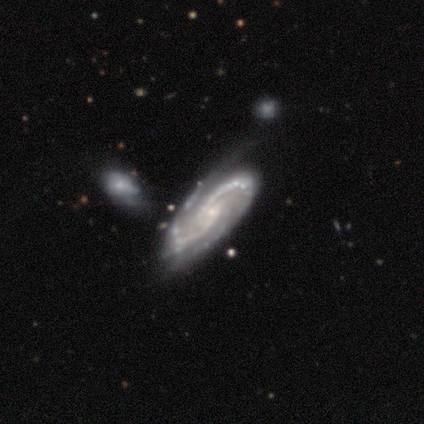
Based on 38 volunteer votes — smooth_or_featured: featured or disk (p=0.92) [alt: smooth p=0.05]
disk_edge_on: no (p=0.94) [alt: yes p=0.06]
bar: no (p=0.67) [alt: weak p=0.18]
has_spiral_arms: yes (p=0.97) [alt: no p=0.03]
spiral_winding: medium (p=0.56) [alt: tight p=0.38]
spiral_arm_count: 2 (p=0.81) [alt: 3 p=0.12]
bulge_size: small (p=0.79) [alt: none p=0.12]
merging: none (p=0.46) [alt: minor disturbance p=0.30]